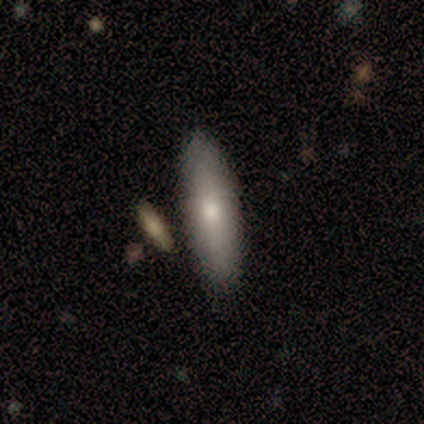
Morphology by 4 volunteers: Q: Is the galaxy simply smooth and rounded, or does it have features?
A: smooth — 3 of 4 (75%).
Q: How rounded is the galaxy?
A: in between — 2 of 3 (67%).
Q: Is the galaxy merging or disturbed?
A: none — 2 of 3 (67%).